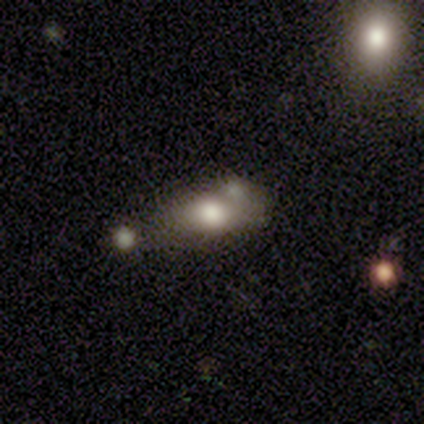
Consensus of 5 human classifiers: Overall: smooth (100%). How rounded: in between (100%). Merging: minor disturbance (60%; major disturbance 20%).